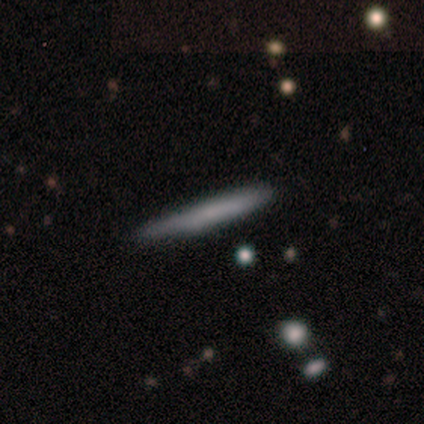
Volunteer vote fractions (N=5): Morphology: type=smooth (40%, tied with featured or disk); roundness=in between (50%, tied with cigar-shaped); merging=none (100%).